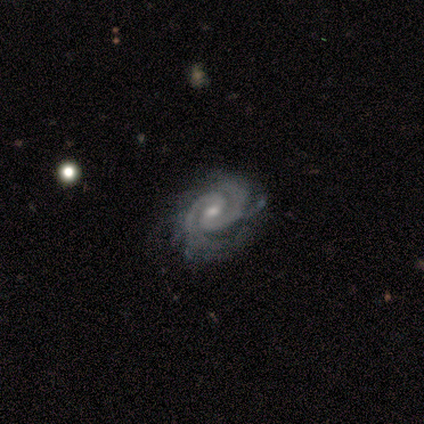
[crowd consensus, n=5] This is clearly a featured or disk galaxy (100%). It is clearly not viewed edge-on (100%). Bar: likely no (60%). Spiral arm pattern: clearly yes (100%). Spiral arm count: clearly 2 (100%). Spiral winding: likely tight (60%). Central bulge: clearly small (80%). Merging: clearly none (80%).